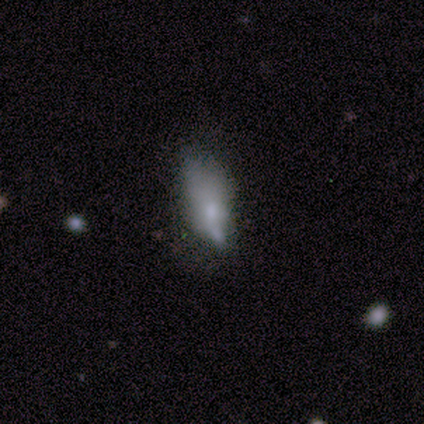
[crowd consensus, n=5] Smooth or featured: featured or disk — 60% (smooth — 20%)
Edge-on disk: no — 100%
Bar: no — 100%
Spiral arms: no — 100%
Bulge size: small — 67% (none — 33%)
Merging: major disturbance — 75% (none — 25%)